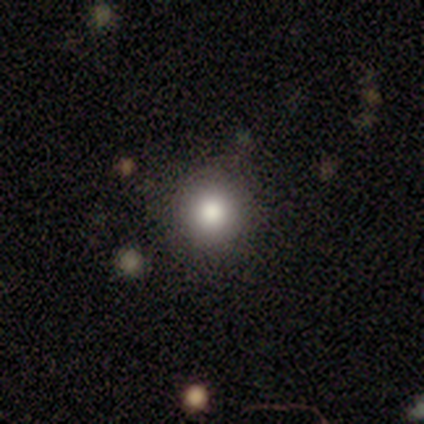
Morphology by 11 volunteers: smooth-or-featured: smooth: 64% | featured or disk: 18% | star or artifact: 18%
  how-rounded: round: 86% | in between: 14% | cigar-shaped: 0%
  merging: none: 78% | minor disturbance: 11% | major disturbance: 11% | merger: 0%